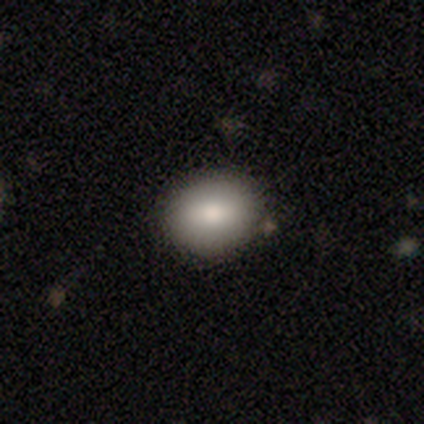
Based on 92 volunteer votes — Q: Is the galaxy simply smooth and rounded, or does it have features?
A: smooth — 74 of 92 (80%).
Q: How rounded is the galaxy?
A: round — 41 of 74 (55%).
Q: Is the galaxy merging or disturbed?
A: none — 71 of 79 (90%).